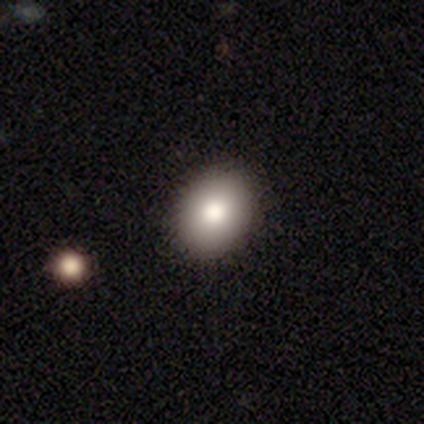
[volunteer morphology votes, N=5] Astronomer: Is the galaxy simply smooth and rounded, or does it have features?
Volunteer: smooth — 100%.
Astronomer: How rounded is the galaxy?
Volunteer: in between — 80%.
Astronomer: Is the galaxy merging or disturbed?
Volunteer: none — 80%.